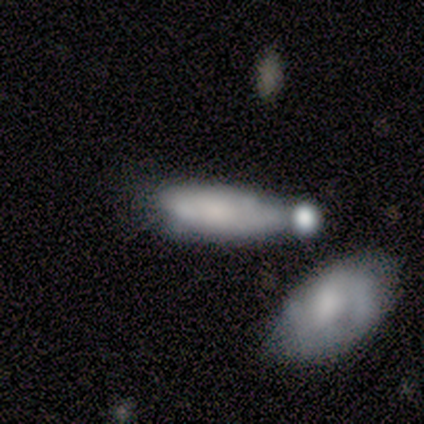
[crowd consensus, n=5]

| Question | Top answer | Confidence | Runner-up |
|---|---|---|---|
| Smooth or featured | featured or disk | 60% | smooth (40%) |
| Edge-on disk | yes | 67% | no (33%) |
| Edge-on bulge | none | 50% | tied: rounded (50%) |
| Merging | merger | 60% | minor disturbance (20%) |